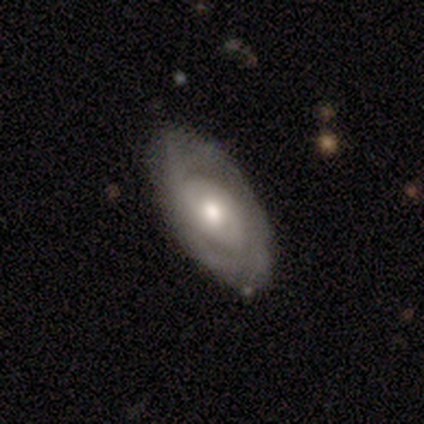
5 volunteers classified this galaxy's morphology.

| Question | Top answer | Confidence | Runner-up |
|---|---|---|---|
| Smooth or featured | featured or disk | 60% | smooth (40%) |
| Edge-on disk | no | 100% | — |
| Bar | no | 67% | weak (33%) |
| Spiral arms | yes | 67% | no (33%) |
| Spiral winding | tight | 50% | tied: medium (50%) |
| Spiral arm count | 2 | 100% | — |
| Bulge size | moderate | 67% | small (33%) |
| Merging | none | 100% | — |